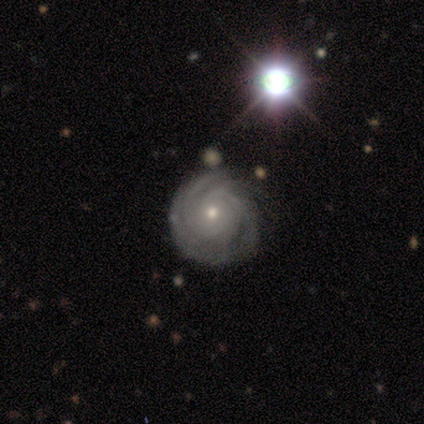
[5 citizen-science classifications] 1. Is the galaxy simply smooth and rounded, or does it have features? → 80% featured or disk, 20% smooth, 0% star or artifact.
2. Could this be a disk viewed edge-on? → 100% no, 0% yes.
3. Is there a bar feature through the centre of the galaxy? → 100% no, 0% strong, 0% weak.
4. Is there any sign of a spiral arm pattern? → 100% yes, 0% no.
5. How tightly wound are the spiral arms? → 50% tight (tied), 50% medium (tied), 0% loose.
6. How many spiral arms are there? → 25% 2 (tied), 25% 3 (tied), 25% more than 4 (tied), 25% can't tell (tied), 0% 1, 0% 4.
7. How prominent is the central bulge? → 100% small, 0% dominant, 0% large, 0% moderate, 0% none.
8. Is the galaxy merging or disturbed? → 80% none, 20% minor disturbance, 0% major disturbance, 0% merger.